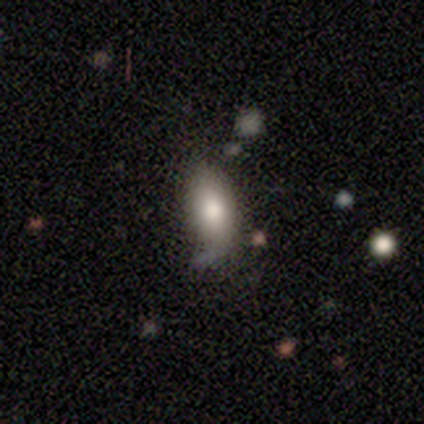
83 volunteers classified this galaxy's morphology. Smooth or featured: smooth — 80% (featured or disk — 11%)
How rounded: in between — 86% (cigar-shaped — 11%)
Merging: none — 67% (minor disturbance — 21%)